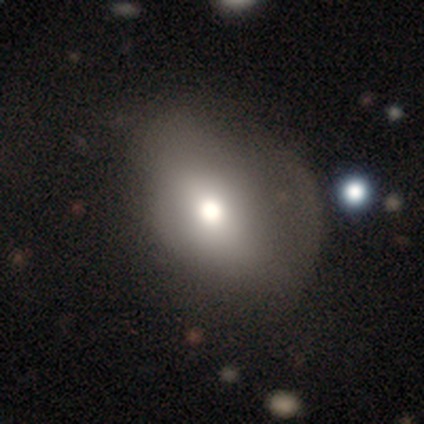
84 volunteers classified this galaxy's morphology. A smooth galaxy with no disk features (71%) that is in between round and cigar-shaped (73%).

Vote fractions:
- Smooth or featured? smooth: 71% / featured or disk: 20% / star or artifact: 8%
- How rounded? in between: 73% / round: 27% / cigar-shaped: 0%
- Merging? none: 55% / major disturbance: 25% / minor disturbance: 18% / merger: 3%